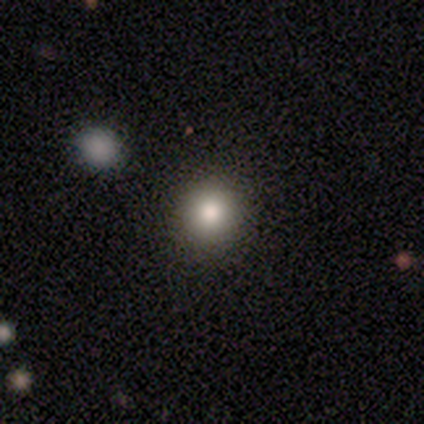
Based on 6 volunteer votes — smooth 83%, star or artifact 17%, featured or disk 0%. Down the decision tree: how rounded — round (100%); merging — none (80%).